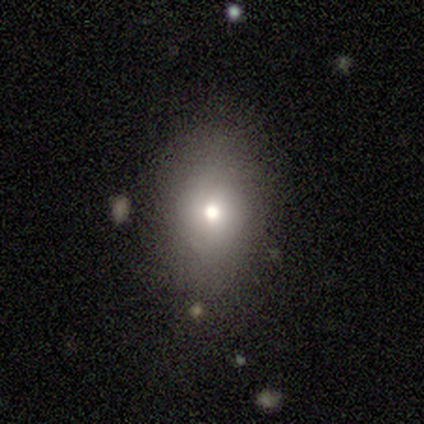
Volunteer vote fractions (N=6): Smooth or featured: smooth — 67% (featured or disk — 33%)
How rounded: in between — 100%
Merging: none — 67% (minor disturbance — 17%)